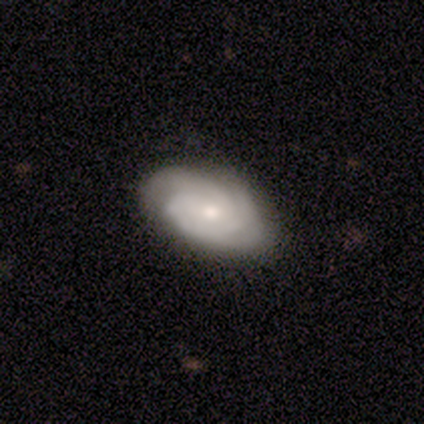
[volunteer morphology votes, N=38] A featured or disk galaxy (76%) with no bar (76%), 3 (48%) tight (72%) spiral arms (86%) and a moderate central bulge (45%, tied with small). Merging: none (46%).